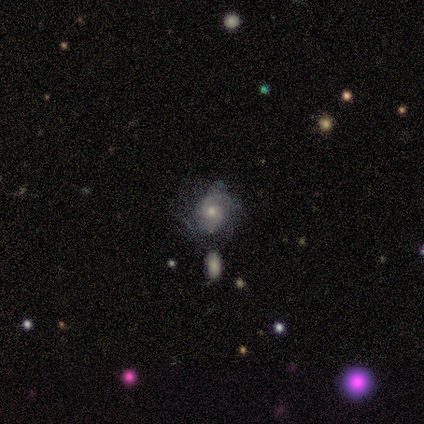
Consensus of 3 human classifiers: Smooth or featured: featured or disk — 67% (star or artifact — 33%)
Edge-on disk: no — 100%
Bar: no — 100%
Spiral arms: no — 100%
Bulge size: moderate — 50% (tied with small — 50%)
Merging: none — 100%